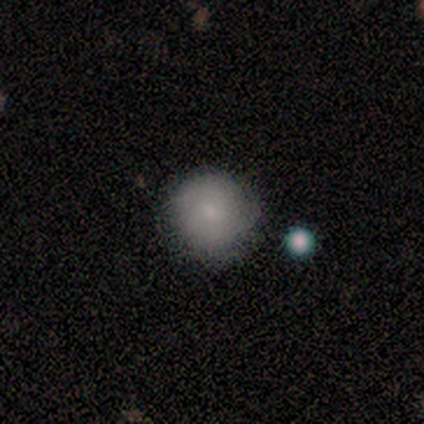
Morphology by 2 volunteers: A smooth galaxy with no disk features (50%, tied with featured or disk) that is round (100%).

Vote fractions:
- Smooth or featured? smooth: 50% (tied) / featured or disk: 50% (tied) / star or artifact: 0%
- How rounded? round: 100% / in between: 0% / cigar-shaped: 0%
- Merging? none: 100% / minor disturbance: 0% / major disturbance: 0% / merger: 0%